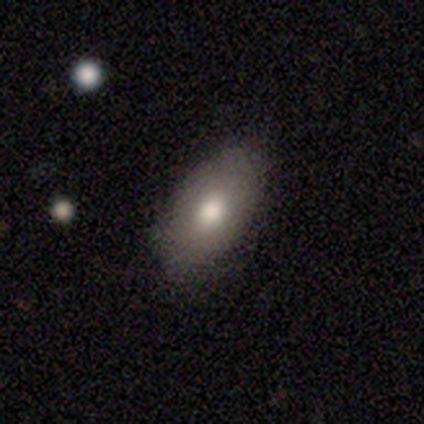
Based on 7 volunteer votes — smooth 86%, star or artifact 14%, featured or disk 0%. Down the decision tree: how rounded — in between (100%); merging — none (67%).